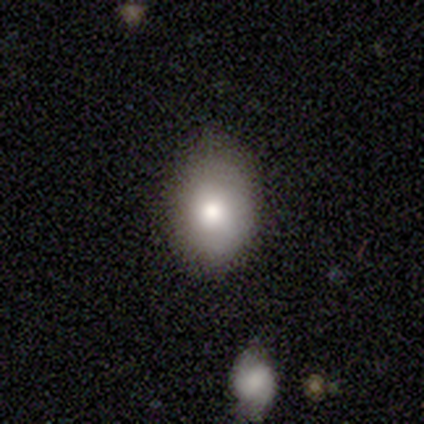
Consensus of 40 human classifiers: This is clearly a smooth galaxy (80%). How rounded: likely in between (72%). Merging: likely none (78%).